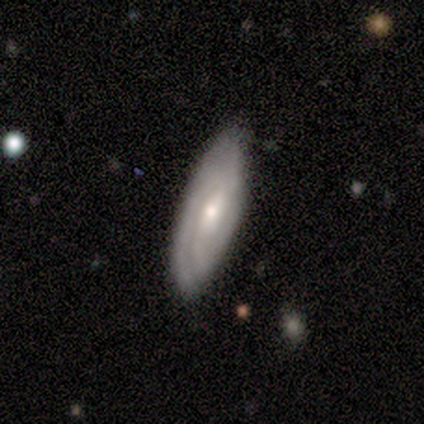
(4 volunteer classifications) smooth_or_featured: smooth (p=0.75) [alt: featured or disk p=0.25]
how_rounded: in between (p=0.67) [alt: cigar-shaped p=0.33]
merging: none (p=1.00)